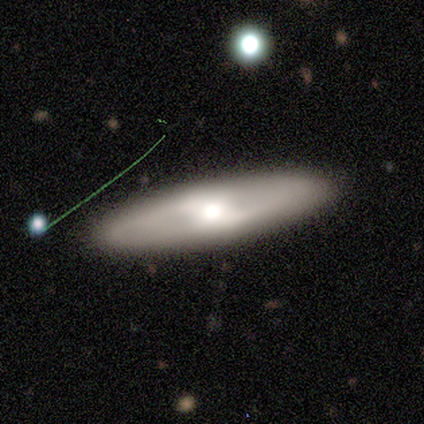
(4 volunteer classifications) Smooth or featured? 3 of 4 (75%) said featured or disk. Edge-on disk? 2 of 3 (67%) said no. Bar? 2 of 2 (100%) said weak. Spiral arms? 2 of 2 (100%) said yes. Spiral winding? 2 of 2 (100%) said loose. Spiral arm count? 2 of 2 (100%) said 2. Bulge size? 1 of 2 (50%, tied with moderate) said large. Merging? 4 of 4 (100%) said none.